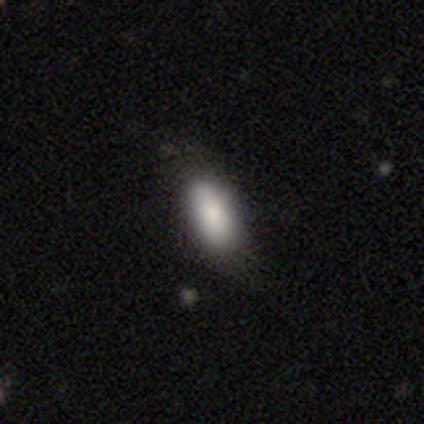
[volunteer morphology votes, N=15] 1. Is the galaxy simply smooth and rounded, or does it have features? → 87% smooth, 13% featured or disk, 0% star or artifact.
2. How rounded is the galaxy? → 100% in between, 0% round, 0% cigar-shaped.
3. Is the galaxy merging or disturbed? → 80% none, 20% minor disturbance, 0% major disturbance, 0% merger.